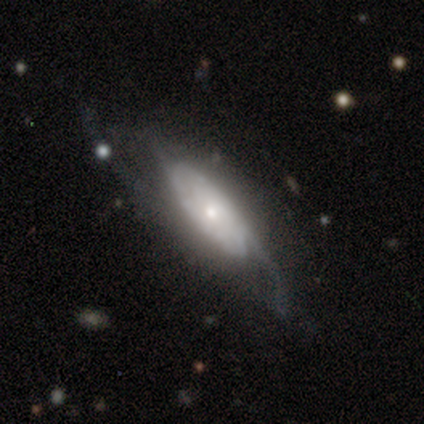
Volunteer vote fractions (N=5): This is likely a featured or disk galaxy (60%). It is clearly not viewed edge-on (100%). Bar: likely no (67%). Spiral arm pattern: likely yes (67%). Spiral arm count: possibly 1 (50%, tied with 2). Spiral winding: clearly loose (100%). Central bulge: likely moderate (67%). Merging: marginally none (40%).